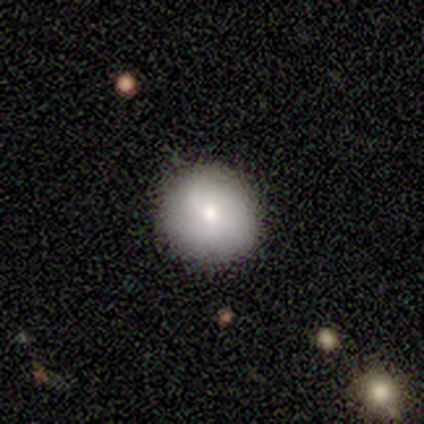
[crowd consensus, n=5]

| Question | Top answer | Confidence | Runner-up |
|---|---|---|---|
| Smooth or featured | smooth | 100% | — |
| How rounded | round | 100% | — |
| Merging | none | 100% | — |